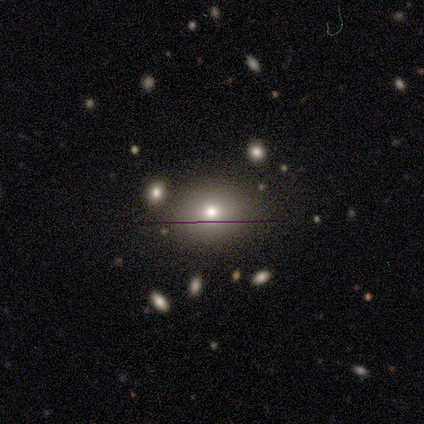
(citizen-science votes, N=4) Smooth or featured: smooth — 50% (tied with star or artifact — 50%)
How rounded: round — 100%
Merging: none — 100%